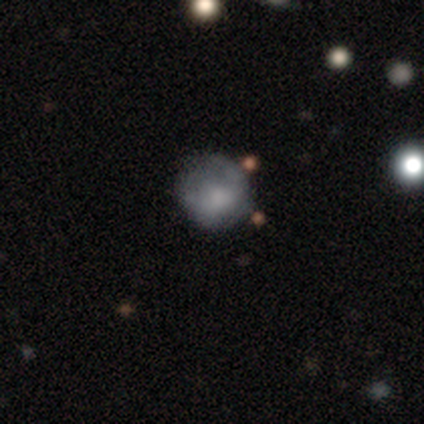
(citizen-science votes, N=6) smooth_or_featured: smooth (p=0.67) [alt: featured or disk p=0.33]
how_rounded: round (p=1.00)
merging: none (p=0.83) [alt: minor disturbance p=0.17]